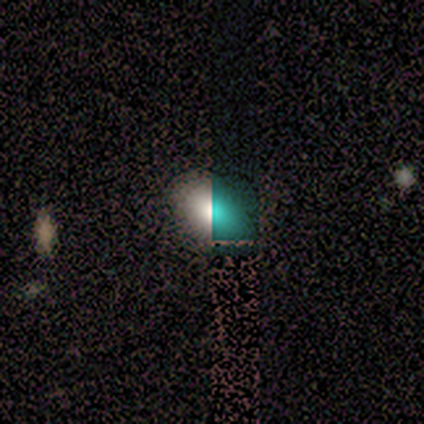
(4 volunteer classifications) This appears to be a smooth galaxy with no disk features (75%) that is in between round and cigar-shaped (100%). Merging: none (100%).